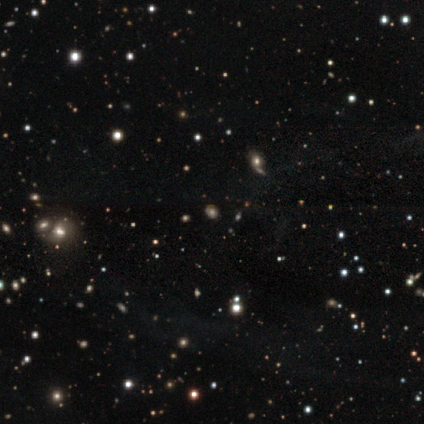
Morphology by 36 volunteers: smooth_or_featured: star or artifact (p=0.67) [alt: smooth p=0.31]